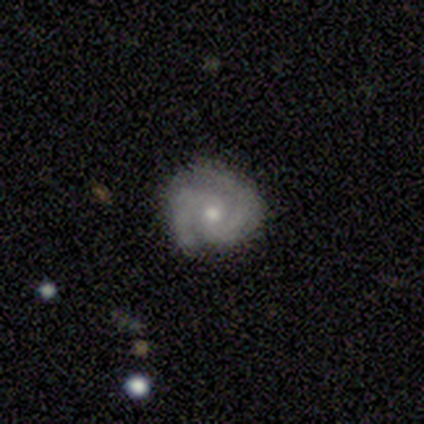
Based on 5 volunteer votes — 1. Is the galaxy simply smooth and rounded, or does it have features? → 80% featured or disk, 20% smooth, 0% star or artifact.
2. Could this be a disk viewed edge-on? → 100% no, 0% yes.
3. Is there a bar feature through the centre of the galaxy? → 75% no, 25% weak, 0% strong.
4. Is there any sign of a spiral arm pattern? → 100% yes, 0% no.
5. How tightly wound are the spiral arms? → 50% tight (tied), 50% medium (tied), 0% loose.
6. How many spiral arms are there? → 100% 2, 0% 1, 0% 3, 0% 4, 0% more than 4, 0% can't tell.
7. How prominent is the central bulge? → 75% moderate, 25% small, 0% dominant, 0% large, 0% none.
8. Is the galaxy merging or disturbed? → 100% none, 0% minor disturbance, 0% major disturbance, 0% merger.